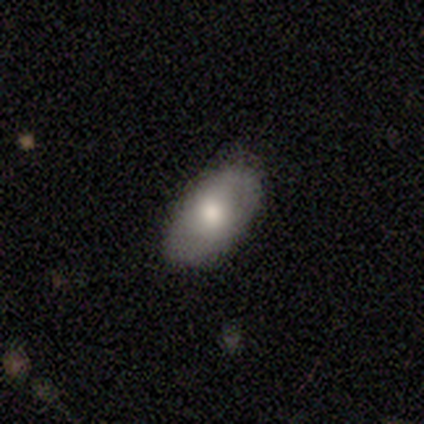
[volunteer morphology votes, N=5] Q: Smooth or featured?
A: smooth (60%); runner-up: featured or disk (40%)
Q: How rounded?
A: in between (100%)
Q: Merging?
A: none (100%)